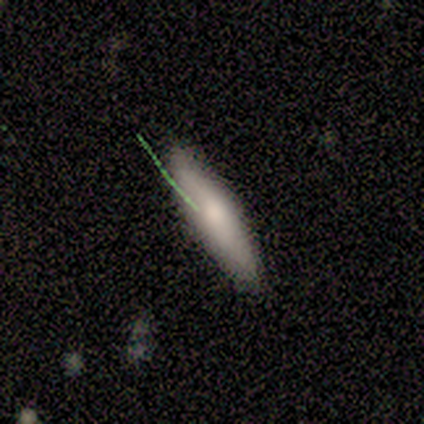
Smooth or featured?
  - smooth: 71% *
  - featured or disk: 24%
  - star or artifact: 6%
How rounded?
  - cigar-shaped: 92% *
  - round: 8%
  - in between: 0%
Merging?
  - none: 75% *
  - minor disturbance: 25%
  - major disturbance: 0%
  - merger: 0%